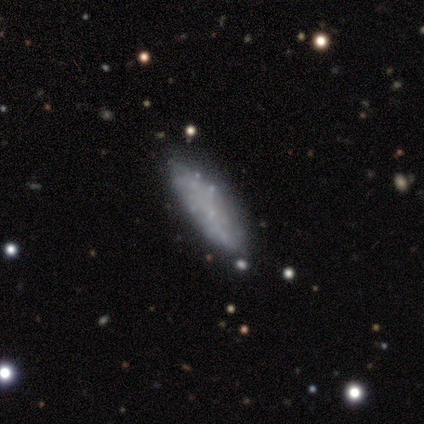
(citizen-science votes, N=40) Volunteers were most divided on "smooth or featured": smooth: 48%, featured or disk: 42%, star or artifact: 10%. More confident: merging — none (78%); how rounded — in between (58%).